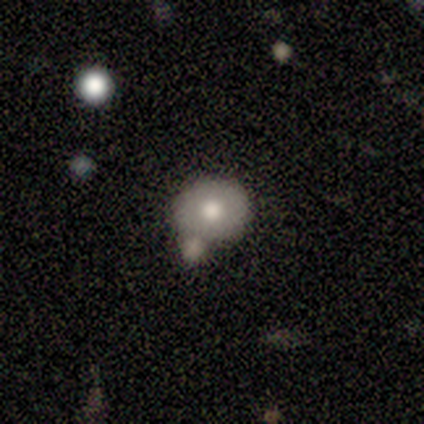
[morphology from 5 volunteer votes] Smooth or featured: smooth — 40% (tied with featured or disk — 40%)
How rounded: round — 50% (tied with in between — 50%)
Merging: none — 75% (minor disturbance — 25%)